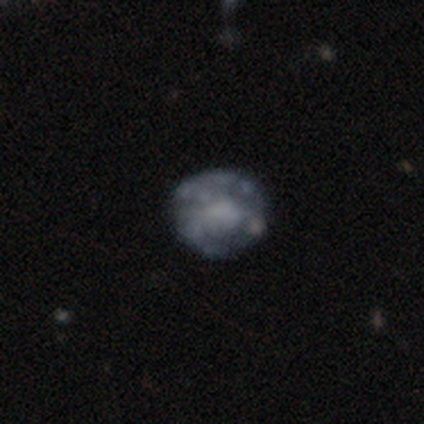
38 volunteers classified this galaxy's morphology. smooth_or_featured: featured or disk (p=0.55) [alt: smooth p=0.26]
disk_edge_on: no (p=1.00)
bar: no (p=0.86) [alt: strong p=0.10]
has_spiral_arms: no (p=0.95) [alt: yes p=0.05]
bulge_size: none (p=0.52) [alt: large p=0.14]
merging: none (p=0.74) [alt: minor disturbance p=0.16]